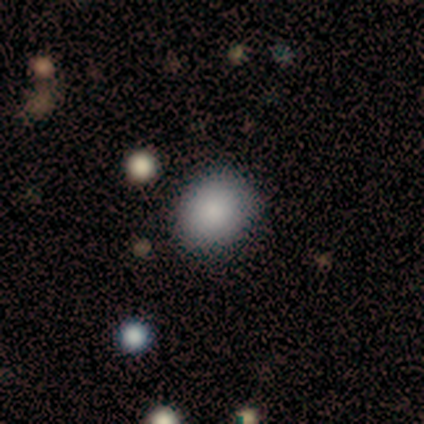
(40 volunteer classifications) A smooth galaxy with no disk features (80%) that is round (66%).

Vote fractions:
- Smooth or featured? smooth: 80% / featured or disk: 10% / star or artifact: 10%
- How rounded? round: 66% / in between: 34% / cigar-shaped: 0%
- Merging? none: 86% / minor disturbance: 11% / major disturbance: 3% / merger: 0%